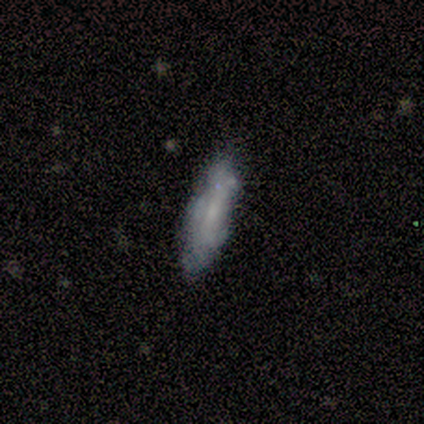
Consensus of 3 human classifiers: Smooth or featured? smooth (67%)
How rounded? cigar-shaped (100%)
Merging? none (67%)